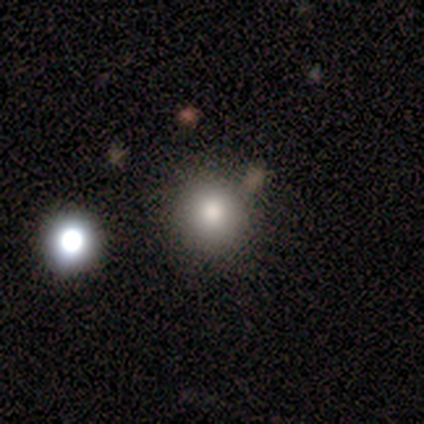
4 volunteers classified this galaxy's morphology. smooth 100%, featured or disk 0%, star or artifact 0%. Down the decision tree: how rounded — round (100%); merging — none (100%).